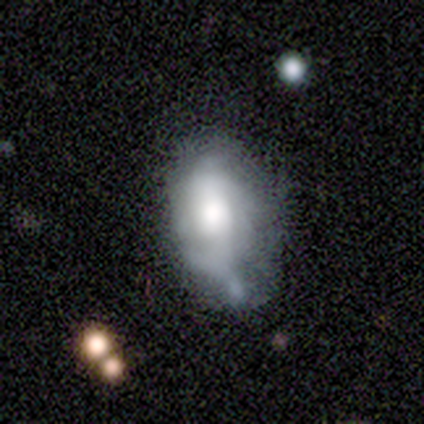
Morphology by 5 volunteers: Q: Smooth or featured?
A: smooth (80%); runner-up: featured or disk (20%)
Q: How rounded?
A: in between (75%); runner-up: cigar-shaped (25%)
Q: Merging?
A: minor disturbance (60%); runner-up: none (20%)